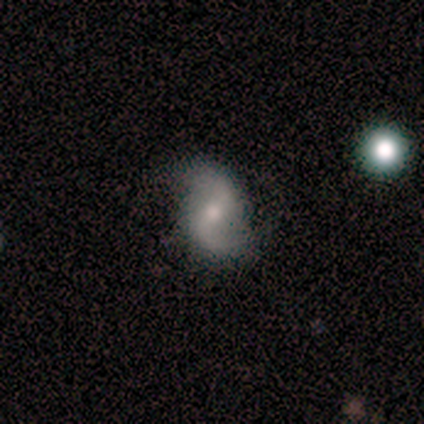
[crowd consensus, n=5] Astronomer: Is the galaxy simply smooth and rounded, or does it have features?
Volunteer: featured or disk — 100%.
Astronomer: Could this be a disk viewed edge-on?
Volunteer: no — 100%.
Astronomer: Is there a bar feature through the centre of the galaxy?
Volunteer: weak — 60%.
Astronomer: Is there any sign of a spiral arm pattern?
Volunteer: yes — 80%.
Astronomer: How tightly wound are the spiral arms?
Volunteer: loose — 100%.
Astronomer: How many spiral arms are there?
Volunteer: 2 — 100%.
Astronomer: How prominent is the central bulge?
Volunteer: moderate — 40%, tied with small at 40%.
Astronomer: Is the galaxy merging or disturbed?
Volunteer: none — 100%.